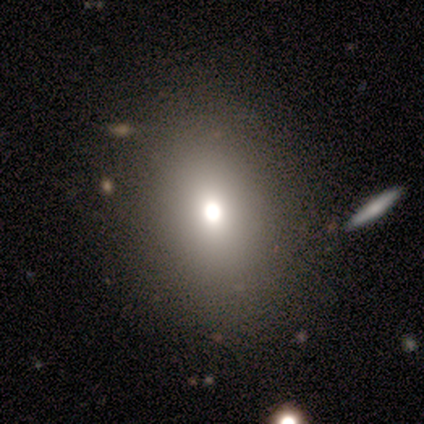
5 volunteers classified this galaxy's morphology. Q: Smooth or featured?
A: smooth (60%); runner-up: star or artifact (40%)
Q: How rounded?
A: round (67%); runner-up: in between (33%)
Q: Merging?
A: none (67%); runner-up: merger (33%)